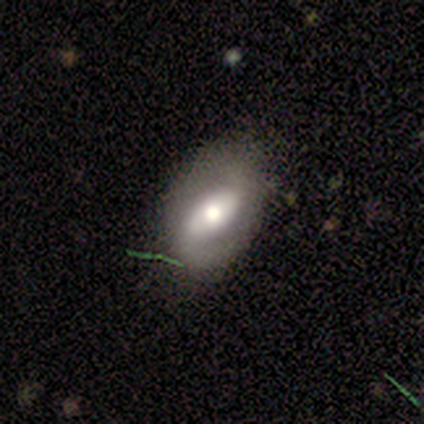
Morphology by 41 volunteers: type=featured or disk (61%); edge-on=no (96%); bar=strong (42%); spiral arms=yes (71%); winding=medium (47%); arm count=2 (65%); bulge=large (50%); merging=none (69%).